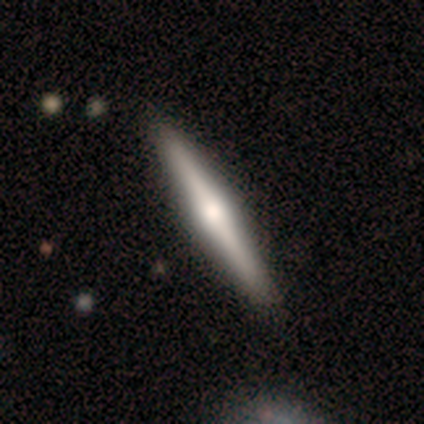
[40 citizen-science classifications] smooth-or-featured: featured or disk: 70% | smooth: 25% | star or artifact: 5%
  disk-edge-on: yes: 100% | no: 0%
    edge-on-bulge: rounded: 86% | boxy: 7% | none: 7%
  merging: none: 58% | minor disturbance: 3% | major disturbance: 3% | merger: 0%